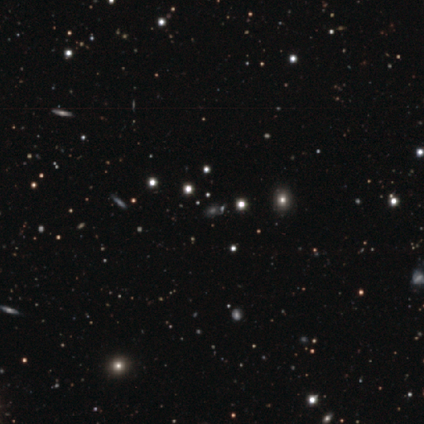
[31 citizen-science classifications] smooth_or_featured: star or artifact (p=0.65) [alt: smooth p=0.26]